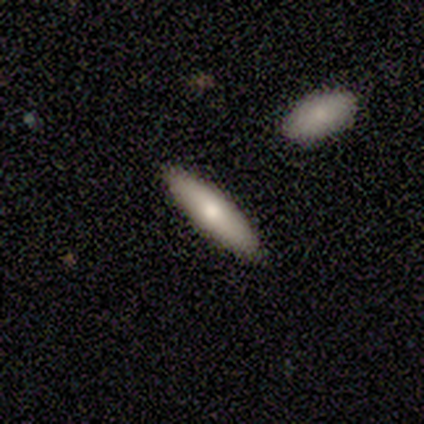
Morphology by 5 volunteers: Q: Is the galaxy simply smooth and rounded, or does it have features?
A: smooth — 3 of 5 (60%).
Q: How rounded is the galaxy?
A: cigar-shaped — 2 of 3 (67%).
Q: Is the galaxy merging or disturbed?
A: none — 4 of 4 (100%).